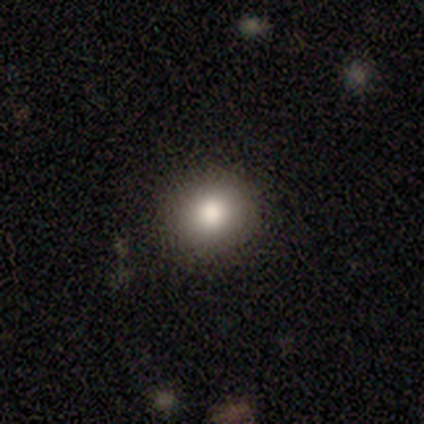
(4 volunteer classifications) Smooth or featured: smooth — 75% (featured or disk — 25%)
How rounded: round — 67% (in between — 33%)
Merging: none — 75% (minor disturbance — 25%)